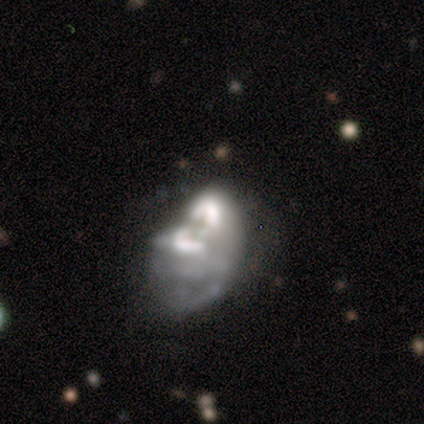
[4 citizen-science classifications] Volunteers were most divided on "smooth or featured" (2-way tie): smooth: 50%, featured or disk: 50%, star or artifact: 0%. More confident: how rounded — in between (100%); merging — major disturbance (75%).